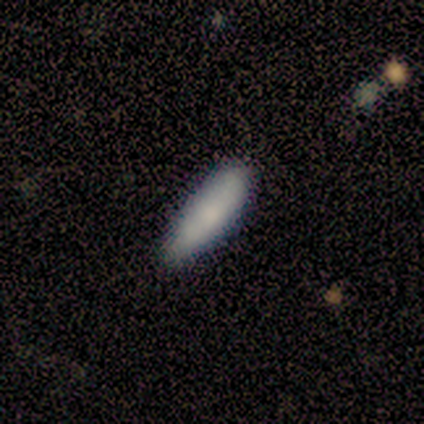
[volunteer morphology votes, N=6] Smooth or featured? 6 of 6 (100%) said smooth. How rounded? 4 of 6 (67%) said in between. Merging? 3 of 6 (50%) said none.